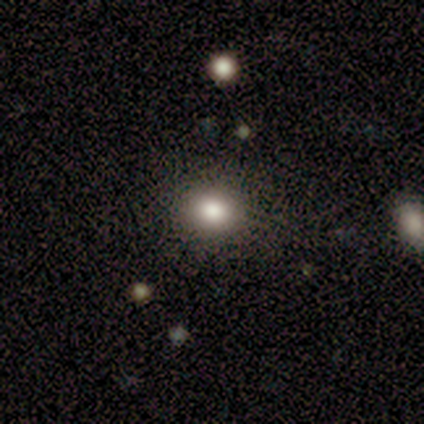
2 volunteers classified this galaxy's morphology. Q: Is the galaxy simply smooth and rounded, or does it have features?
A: smooth — 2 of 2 (100%).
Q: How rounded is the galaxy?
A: round — 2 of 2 (100%).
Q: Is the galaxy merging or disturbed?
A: none — 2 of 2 (100%).